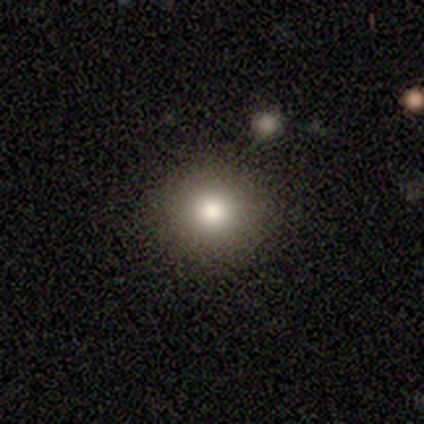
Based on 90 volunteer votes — A smooth galaxy with no disk features (76%) that is round (91%).

Vote fractions:
- Smooth or featured? smooth: 76% / star or artifact: 18% / featured or disk: 7%
- How rounded? round: 91% / in between: 9% / cigar-shaped: 0%
- Merging? none: 89% / minor disturbance: 4% / merger: 4% / major disturbance: 3%